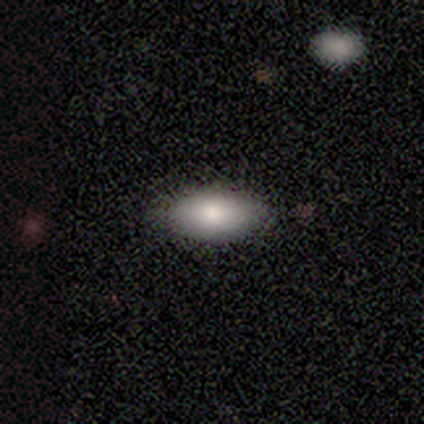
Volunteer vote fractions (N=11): smooth-or-featured: smooth: 91% | star or artifact: 9% | featured or disk: 0%
  how-rounded: in between: 90% | cigar-shaped: 10% | round: 0%
  merging: none: 80% | minor disturbance: 20% | major disturbance: 0% | merger: 0%